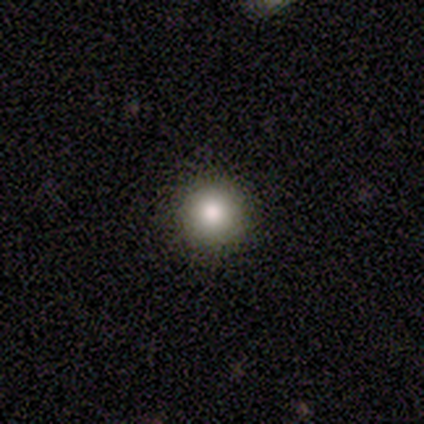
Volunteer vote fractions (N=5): Overall: smooth (80%). How rounded: round (100%). Merging: none (100%).